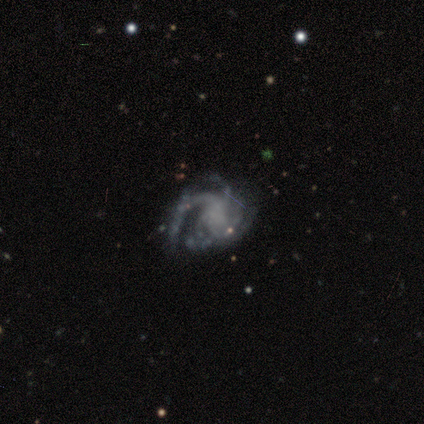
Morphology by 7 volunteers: featured or disk 86%, star or artifact 14%, smooth 0%. Down the decision tree: edge-on disk — no (100%); bar — no (50%); spiral arms — yes (100%); spiral arm count — 3 (67%); spiral winding — medium (50%); bulge size — none (67%); merging — minor disturbance (50%).